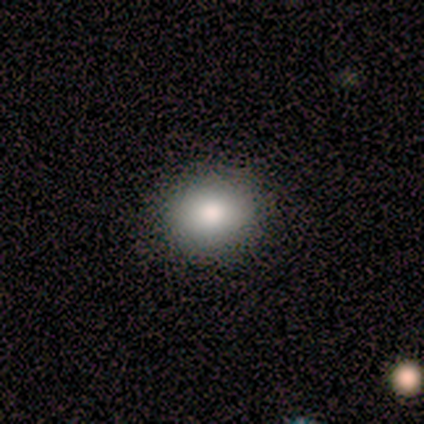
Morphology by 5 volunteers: smooth_or_featured: smooth (p=1.00)
how_rounded: in between (p=0.60) [alt: round p=0.40]
merging: none (p=1.00)